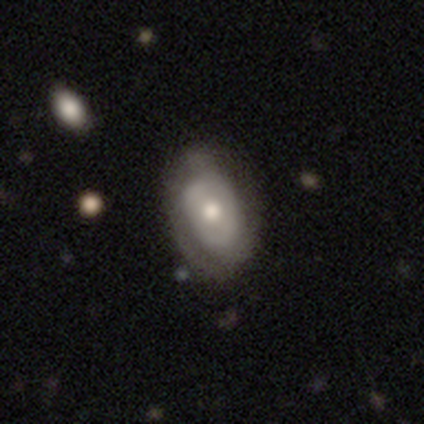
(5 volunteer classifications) Q: Smooth or featured?
A: featured or disk (100%)
Q: Edge-on disk?
A: no (100%)
Q: Bar?
A: no (60%); runner-up: weak (40%)
Q: Spiral arms?
A: no (60%); runner-up: yes (40%)
Q: Bulge size?
A: moderate (100%)
Q: Merging?
A: none (40%); tied with: minor disturbance (40%)